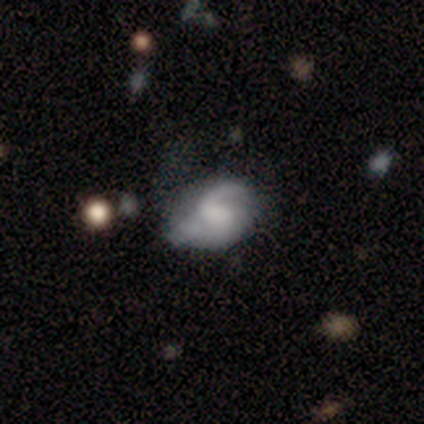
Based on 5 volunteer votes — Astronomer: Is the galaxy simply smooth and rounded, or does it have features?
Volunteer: featured or disk — 100%.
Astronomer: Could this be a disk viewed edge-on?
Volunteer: no — 100%.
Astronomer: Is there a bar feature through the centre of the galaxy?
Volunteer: no — 60% (runner-up: weak, 40%).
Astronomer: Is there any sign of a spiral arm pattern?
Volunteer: yes — 100%.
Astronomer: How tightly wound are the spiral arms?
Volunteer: tight — 40%, tied with medium at 40%.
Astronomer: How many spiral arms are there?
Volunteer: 1 — 60% (runner-up: 2, 40%).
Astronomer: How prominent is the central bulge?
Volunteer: none — 80%.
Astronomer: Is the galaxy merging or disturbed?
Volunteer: none — 60%.